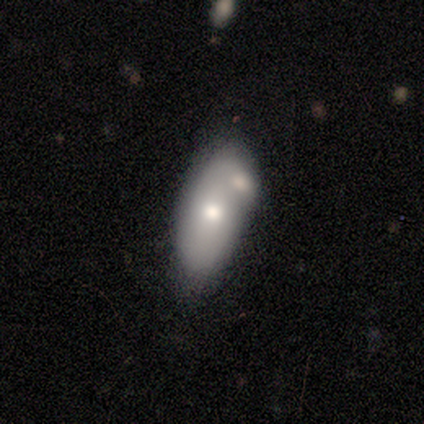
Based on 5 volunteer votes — smooth_or_featured: smooth (p=0.60) [alt: featured or disk p=0.40]
how_rounded: in between (p=1.00)
merging: merger (p=0.40) [alt: none p=0.20]